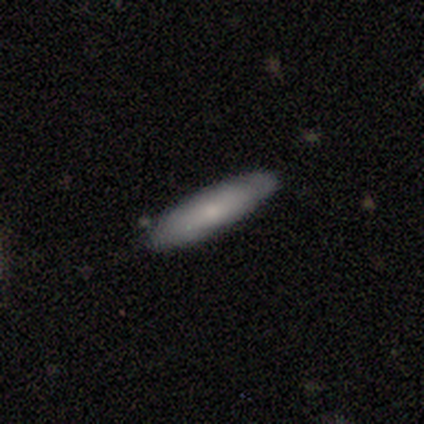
smooth_or_featured: smooth (p=0.67) [alt: star or artifact p=0.33]
how_rounded: cigar-shaped (p=1.00)
merging: none (p=0.50) [tied with: minor disturbance p=0.50]